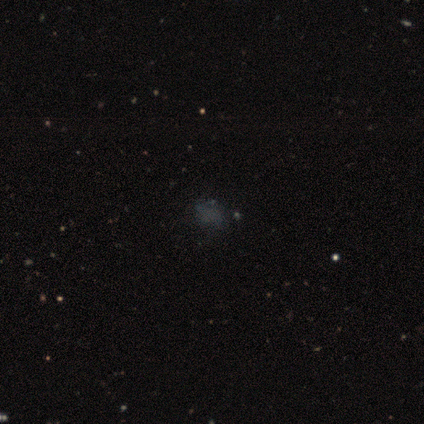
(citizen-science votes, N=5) Smooth or featured?
  - smooth: 60% *
  - star or artifact: 40%
  - featured or disk: 0%
How rounded?
  - round: 33% * (tied)
  - in between: 33% * (tied)
  - cigar-shaped: 33% * (tied)
Merging?
  - none: 67% *
  - merger: 33%
  - minor disturbance: 0%
  - major disturbance: 0%